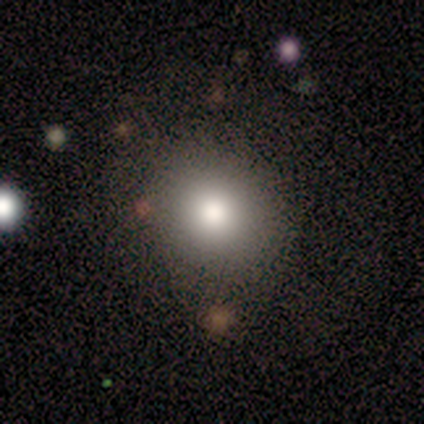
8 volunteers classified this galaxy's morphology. type=smooth (88%); roundness=round (100%); merging=none (86%).